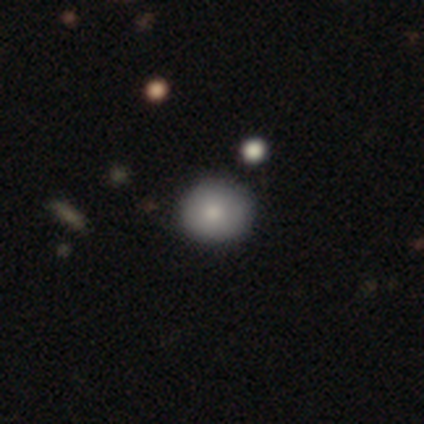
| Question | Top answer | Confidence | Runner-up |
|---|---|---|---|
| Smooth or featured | smooth | 80% | star or artifact (20%) |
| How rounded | round | 75% | in between (25%) |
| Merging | none | 50% | tied: minor disturbance (50%) |